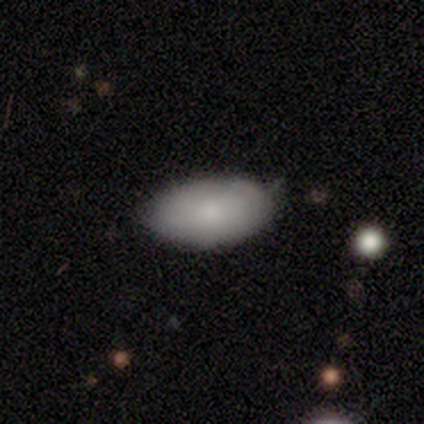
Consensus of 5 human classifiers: smooth-or-featured: smooth: 80% | featured or disk: 20% | star or artifact: 0%
  how-rounded: in between: 100% | round: 0% | cigar-shaped: 0%
  merging: none: 60% | minor disturbance: 40% | major disturbance: 0% | merger: 0%